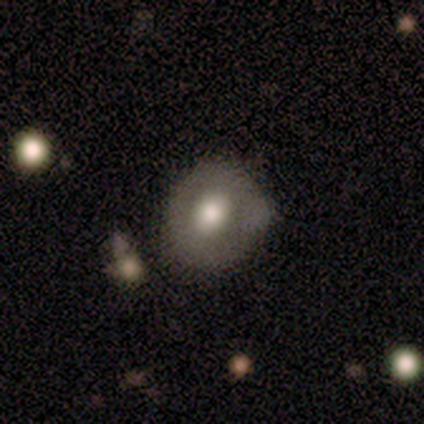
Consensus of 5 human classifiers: Volunteers were most divided on "smooth or featured": featured or disk: 60%, smooth: 40%, star or artifact: 0%. More confident: edge-on disk — no (100%); bulge size — moderate (100%); merging — none (80%); bar — no (67%); spiral arms — no (67%).